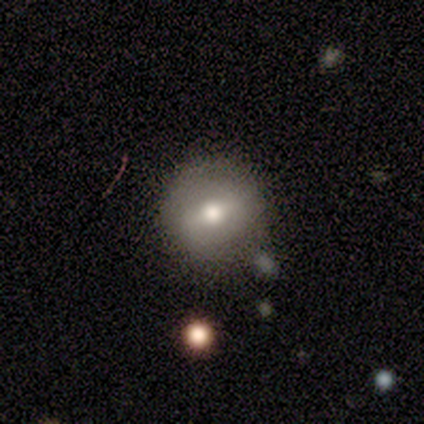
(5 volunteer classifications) smooth_or_featured: smooth (p=0.60) [alt: featured or disk p=0.20]
how_rounded: round (p=1.00)
merging: none (p=1.00)